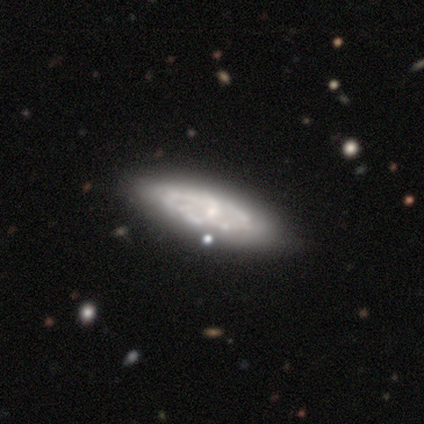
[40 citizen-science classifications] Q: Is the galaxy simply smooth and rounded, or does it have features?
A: featured or disk — 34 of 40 (85%).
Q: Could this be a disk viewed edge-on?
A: no — 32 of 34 (94%).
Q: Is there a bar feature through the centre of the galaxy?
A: no — 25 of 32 (78%).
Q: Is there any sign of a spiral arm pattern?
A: no — 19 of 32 (59%).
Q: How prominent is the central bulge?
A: small — 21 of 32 (66%).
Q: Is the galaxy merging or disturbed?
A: none — 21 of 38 (55%).